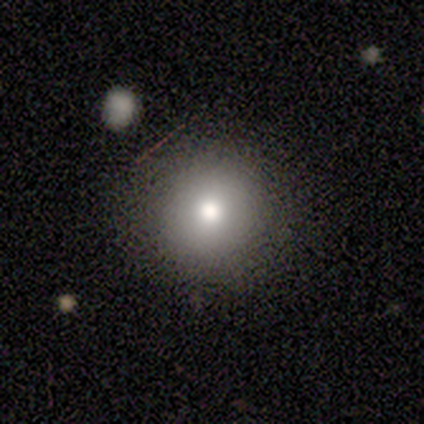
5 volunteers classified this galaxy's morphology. A smooth galaxy with no disk features (60%) that is round (100%). Merging: none (67%).